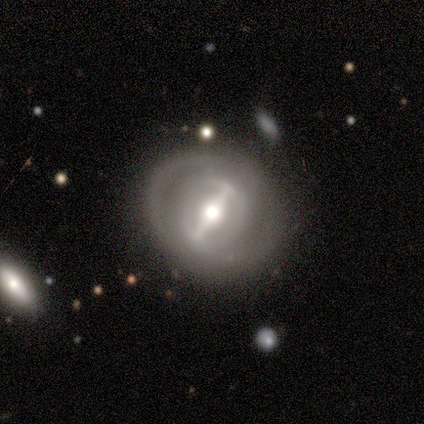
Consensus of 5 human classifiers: Smooth or featured?
  - featured or disk: 80% *
  - smooth: 20%
  - star or artifact: 0%
Edge-on disk?
  - no: 100% *
  - yes: 0%
Bar?
  - strong: 100% *
  - weak: 0%
  - no: 0%
Spiral arms?
  - no: 75% *
  - yes: 25%
Bulge size?
  - moderate: 50% *
  - large: 25%
  - small: 25%
  - dominant: 0%
  - none: 0%
Merging?
  - none: 100% *
  - minor disturbance: 0%
  - major disturbance: 0%
  - merger: 0%